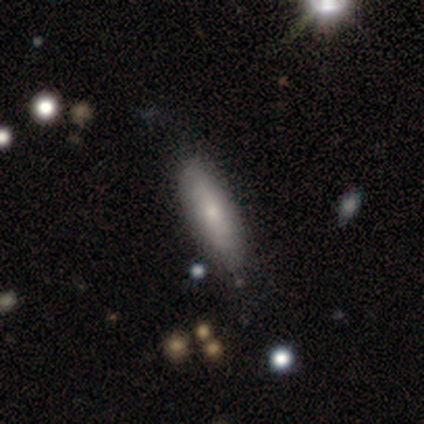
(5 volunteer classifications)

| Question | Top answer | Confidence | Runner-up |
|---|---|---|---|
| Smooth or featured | smooth | 60% | featured or disk (40%) |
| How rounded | round | 33% | tied: in between (33%), cigar-shaped (33%) |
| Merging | none | 100% | — |